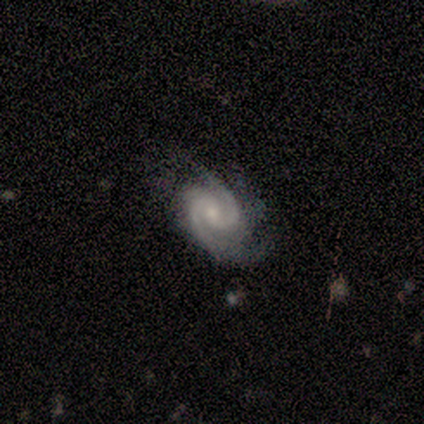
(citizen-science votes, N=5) featured or disk 100%, smooth 0%, star or artifact 0%. Down the decision tree: edge-on disk — no (100%); bar — no (80%); spiral arms — yes (100%); spiral arm count — 2 (100%); spiral winding — tight (80%); bulge size — small (80%); merging — none (40%, tied with minor disturbance).